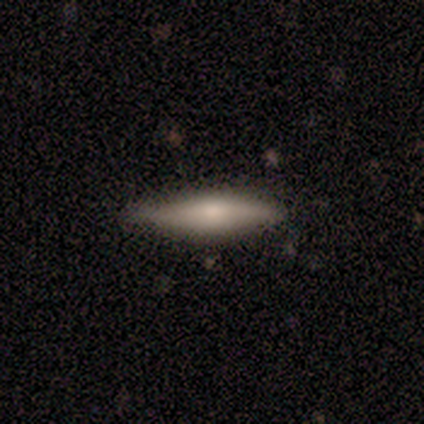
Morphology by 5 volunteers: Smooth or featured?
  - smooth: 80% *
  - featured or disk: 20%
  - star or artifact: 0%
How rounded?
  - cigar-shaped: 75% *
  - in between: 25%
  - round: 0%
Merging?
  - none: 80% *
  - minor disturbance: 20%
  - major disturbance: 0%
  - merger: 0%